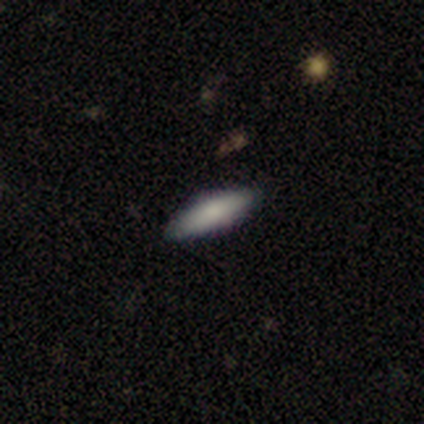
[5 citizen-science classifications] Overall: smooth (100%). How rounded: cigar-shaped (60%; in between 40%). Merging: none (100%).